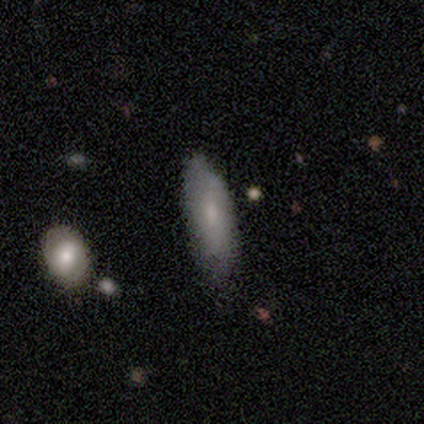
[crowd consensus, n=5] Smooth or featured?
  - smooth: 100% *
  - featured or disk: 0%
  - star or artifact: 0%
How rounded?
  - in between: 80% *
  - cigar-shaped: 20%
  - round: 0%
Merging?
  - none: 100% *
  - minor disturbance: 0%
  - major disturbance: 0%
  - merger: 0%